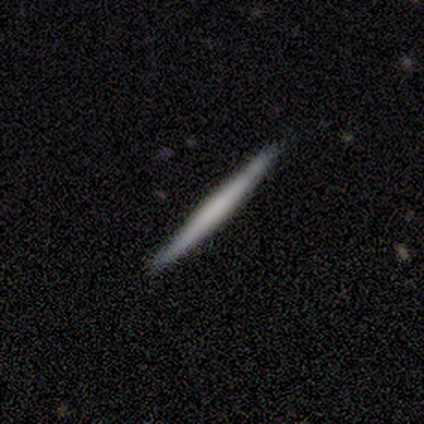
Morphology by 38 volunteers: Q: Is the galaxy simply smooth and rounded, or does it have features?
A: featured or disk — 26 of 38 (68%).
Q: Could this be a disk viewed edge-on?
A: yes — 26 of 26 (100%).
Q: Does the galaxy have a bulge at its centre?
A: none — 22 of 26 (85%).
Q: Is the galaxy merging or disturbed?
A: none — 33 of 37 (89%).